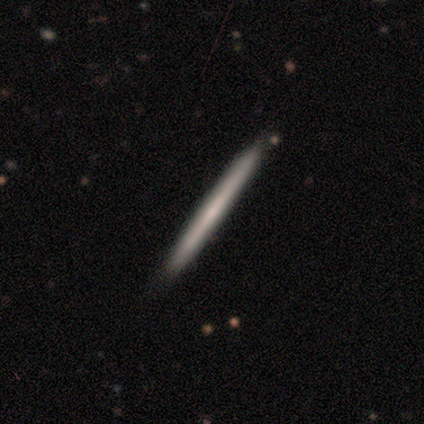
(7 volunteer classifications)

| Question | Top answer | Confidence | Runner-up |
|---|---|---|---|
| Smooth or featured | featured or disk | 71% | smooth (29%) |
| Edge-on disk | yes | 100% | — |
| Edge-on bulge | none | 80% | boxy (20%) |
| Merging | none | 71% | minor disturbance (29%) |